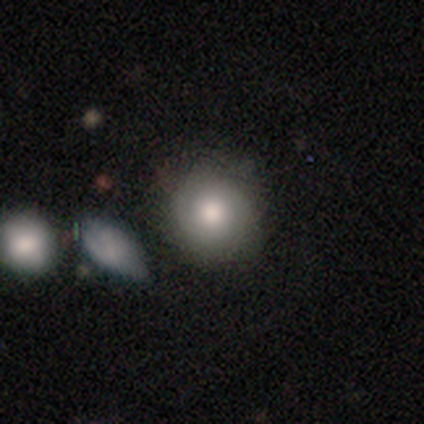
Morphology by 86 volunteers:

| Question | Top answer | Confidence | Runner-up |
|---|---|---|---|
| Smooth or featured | smooth | 72% | featured or disk (20%) |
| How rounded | round | 92% | in between (6%) |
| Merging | none | 73% | minor disturbance (16%) |